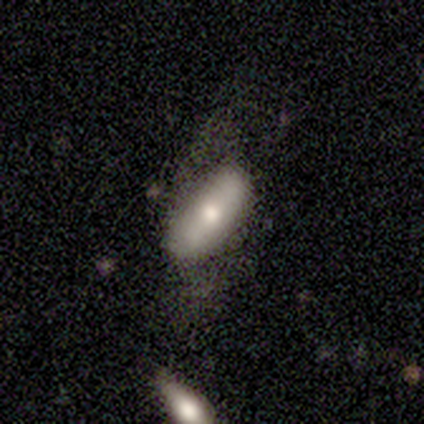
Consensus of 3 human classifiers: Smooth or featured? smooth (33%, tied with featured or disk and star or artifact)
How rounded? round (100%)
Merging? minor disturbance (50%, tied with merger)